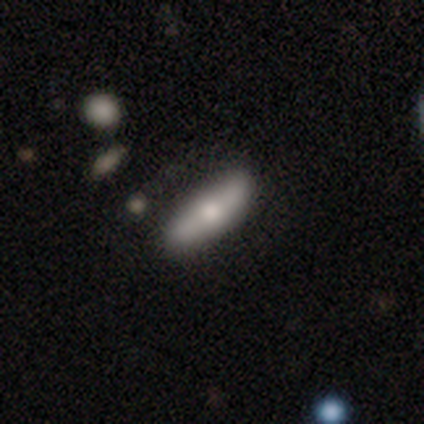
Volunteers were most divided on "smooth or featured" (2-way tie): smooth: 50%, featured or disk: 50%, star or artifact: 0%. More confident: merging — none (100%); how rounded — in between (67%).